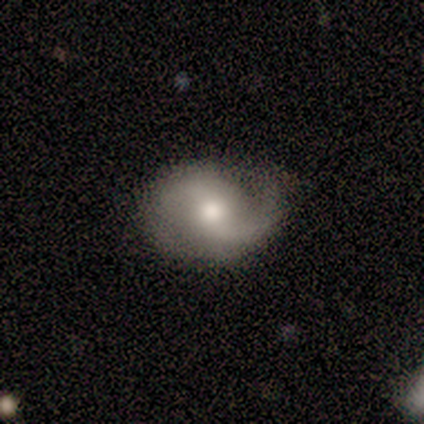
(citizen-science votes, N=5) featured or disk 80%, smooth 20%, star or artifact 0%. Down the decision tree: edge-on disk — no (75%); bar — weak (67%); spiral arms — yes (100%); spiral arm count — 1 (67%); spiral winding — medium (67%); bulge size — moderate (67%); merging — none (40%, tied with minor disturbance).